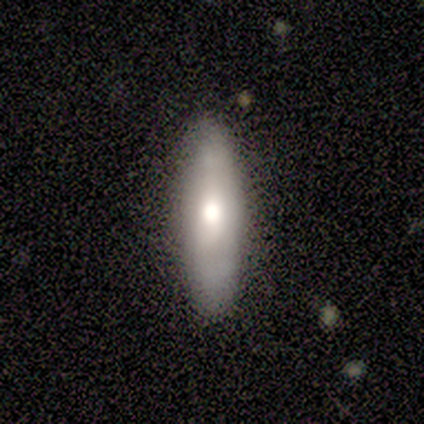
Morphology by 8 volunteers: This is possibly a smooth galaxy (50%, tied with featured or disk). How rounded: clearly cigar-shaped (100%). Merging: clearly none (88%).